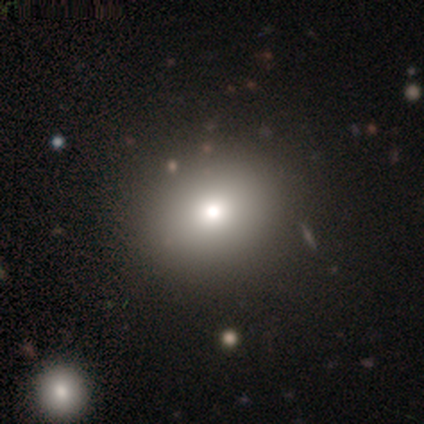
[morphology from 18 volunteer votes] type=smooth (56%); roundness=round (70%); merging=none (93%).